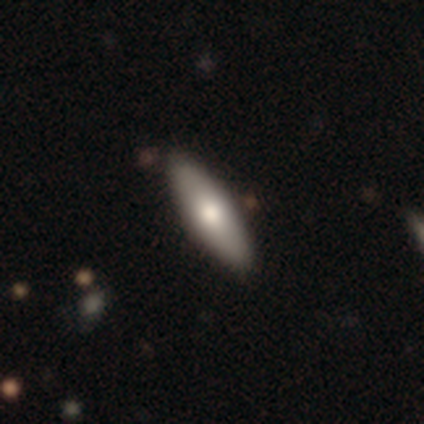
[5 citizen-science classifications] Morphology: type=featured or disk (60%); edge-on=yes (67%); edge-on bulge=none (50%, tied with rounded); merging=none (100%).